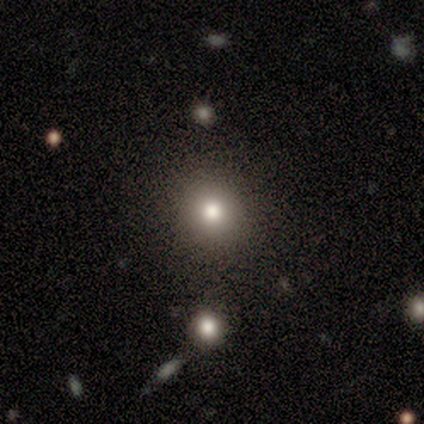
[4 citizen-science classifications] Smooth or featured? 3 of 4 (75%) said smooth. How rounded? 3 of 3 (100%) said round. Merging? 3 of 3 (100%) said none.